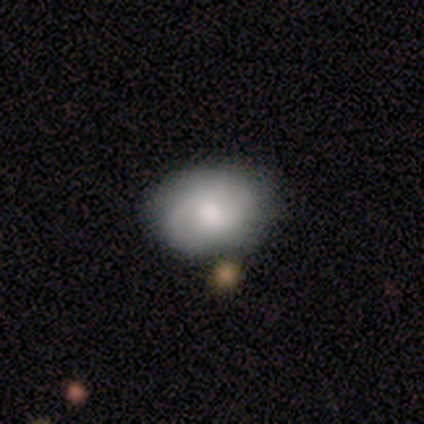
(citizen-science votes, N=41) Smooth or featured?
  - featured or disk: 61% *
  - smooth: 37%
  - star or artifact: 2%
Edge-on disk?
  - no: 96% *
  - yes: 4%
Bar?
  - no: 71% *
  - weak: 29%
  - strong: 0%
Spiral arms?
  - yes: 83% *
  - no: 17%
Spiral winding?
  - tight: 45% *
  - medium: 40%
  - loose: 15%
Spiral arm count?
  - 2: 50% *
  - 1: 25%
  - can't tell: 20%
  - more than 4: 5%
  - 3: 0%
  - 4: 0%
Bulge size?
  - moderate: 79% *
  - large: 12%
  - small: 8%
  - dominant: 0%
  - none: 0%
Merging?
  - none: 72% *
  - minor disturbance: 15%
  - merger: 12%
  - major disturbance: 0%